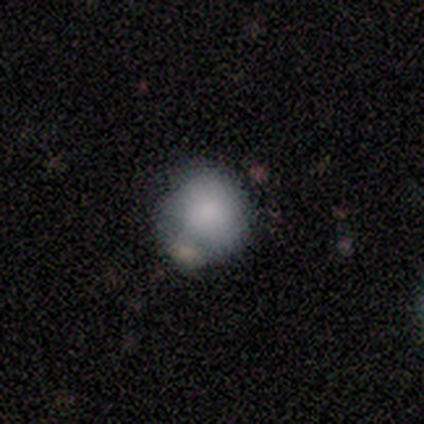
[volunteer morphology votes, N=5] smooth 100%, featured or disk 0%, star or artifact 0%. Down the decision tree: how rounded — round (80%); merging — none (40%, tied with minor disturbance).